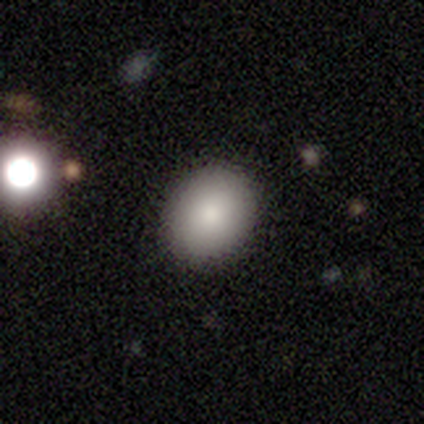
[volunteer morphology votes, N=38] Volunteers were most divided on "how rounded": round: 65%, in between: 35%, cigar-shaped: 0%. More confident: smooth or featured — smooth (89%); merging — none (83%).